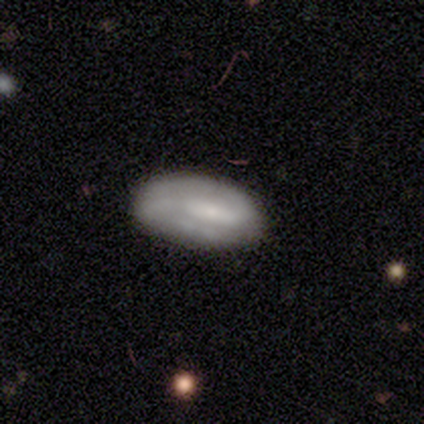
Smooth or featured? 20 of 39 (51%) said featured or disk. Edge-on disk? 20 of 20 (100%) said no. Bar? 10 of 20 (50%) said weak. Spiral arms? 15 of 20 (75%) said yes. Spiral winding? 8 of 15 (53%) said tight. Spiral arm count? 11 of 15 (73%) said 2. Bulge size? 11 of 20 (55%) said small. Merging? 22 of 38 (58%) said none.